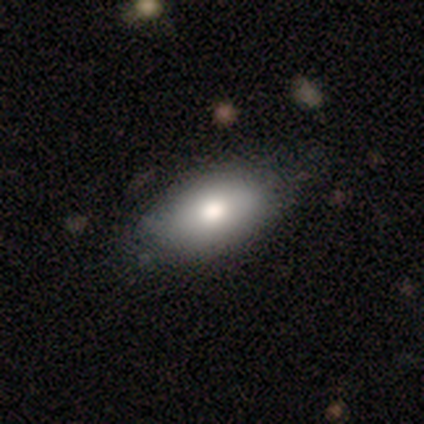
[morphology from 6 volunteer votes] Q: Smooth or featured?
A: smooth (83%); runner-up: star or artifact (17%)
Q: How rounded?
A: in between (100%)
Q: Merging?
A: none (60%); runner-up: minor disturbance (40%)